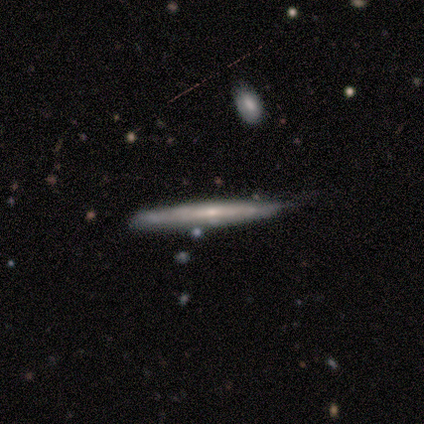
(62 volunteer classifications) Overall: featured or disk (60%; smooth 37%). Edge-on disk: yes (86%). Edge-on bulge: none (62%; rounded 31%). Merging: none (77%).